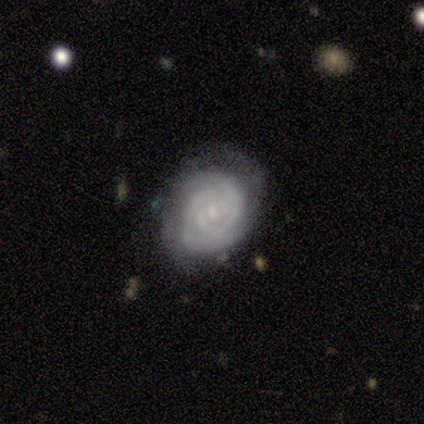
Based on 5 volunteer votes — Smooth or featured: featured or disk — 80% (smooth — 20%)
Edge-on disk: no — 100%
Bar: no — 100%
Spiral arms: yes — 100%
Spiral winding: tight — 100%
Spiral arm count: 2 — 50% (3 — 25%)
Bulge size: small — 75% (moderate — 25%)
Merging: none — 80% (minor disturbance — 20%)